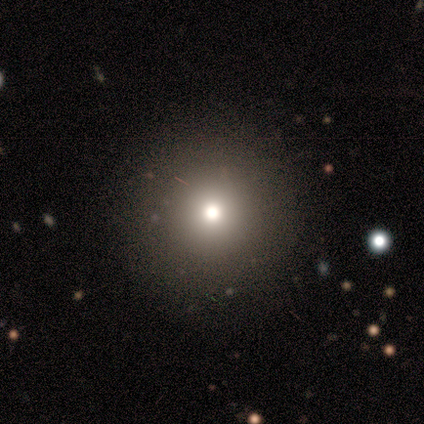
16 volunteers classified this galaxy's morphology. This appears to be a smooth galaxy with no disk features (75%) that is round (92%). Merging: none (85%).